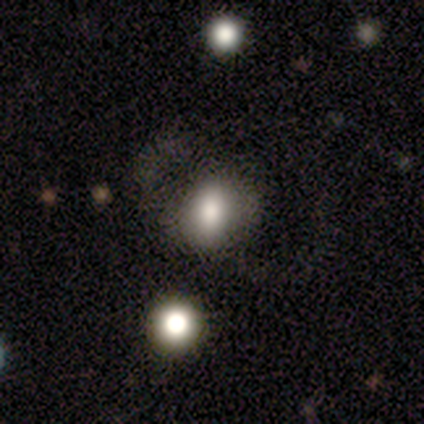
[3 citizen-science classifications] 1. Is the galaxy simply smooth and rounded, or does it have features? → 100% smooth, 0% featured or disk, 0% star or artifact.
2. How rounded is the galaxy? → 67% in between, 33% round, 0% cigar-shaped.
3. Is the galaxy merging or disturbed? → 67% none, 33% minor disturbance, 0% major disturbance, 0% merger.